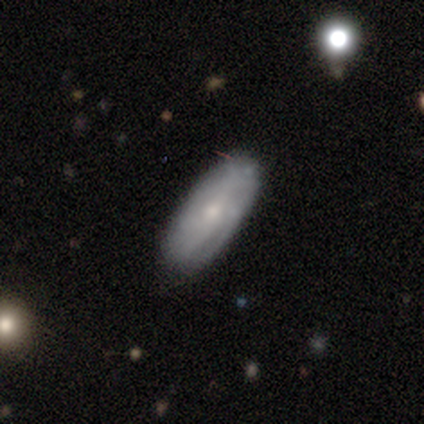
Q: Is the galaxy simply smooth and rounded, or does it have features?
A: smooth — 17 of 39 (44%, tied with featured or disk).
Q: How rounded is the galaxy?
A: in between — 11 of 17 (65%).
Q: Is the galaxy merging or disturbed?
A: none — 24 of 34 (71%).